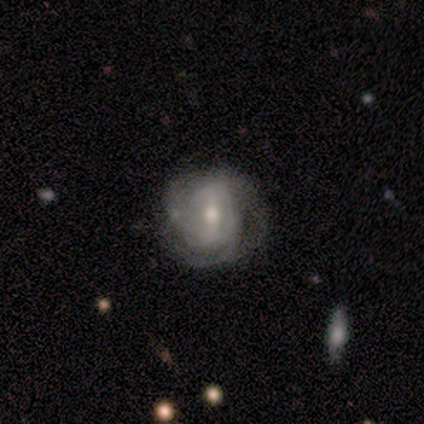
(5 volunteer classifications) Smooth or featured? featured or disk (100%)
Edge-on disk? no (100%)
Bar? strong (80%)
Spiral arms? yes (100%)
Spiral winding? tight (60%)
Spiral arm count? 3 (80%)
Bulge size? moderate (100%)
Merging? none (80%)